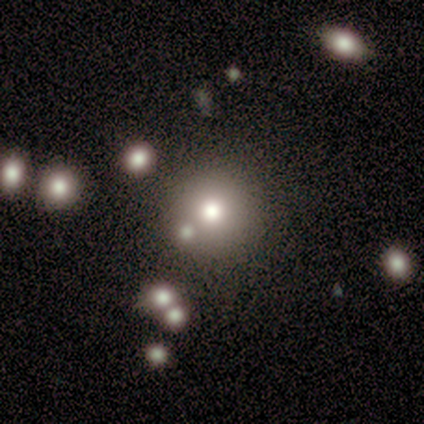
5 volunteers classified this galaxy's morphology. Smooth or featured: smooth — 100%
How rounded: round — 100%
Merging: none — 80% (minor disturbance — 20%)